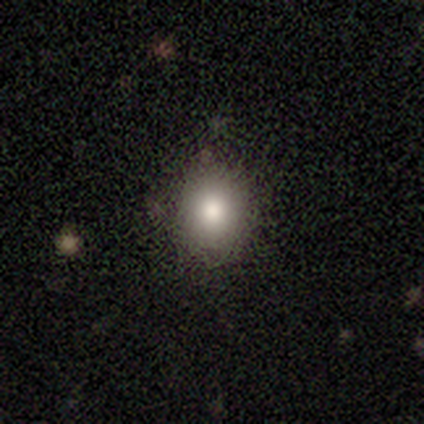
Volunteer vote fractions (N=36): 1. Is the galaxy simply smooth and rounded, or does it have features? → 78% smooth, 17% star or artifact, 6% featured or disk.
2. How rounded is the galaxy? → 61% round, 39% in between, 0% cigar-shaped.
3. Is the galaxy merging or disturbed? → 97% none, 3% minor disturbance, 0% major disturbance, 0% merger.